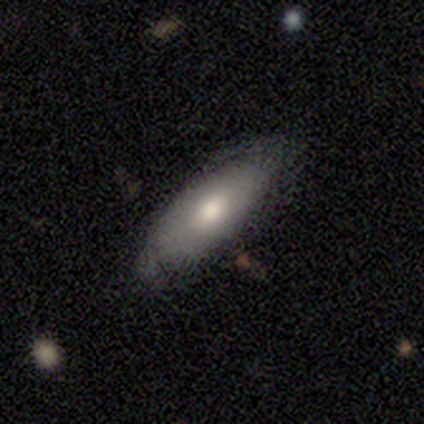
This appears to be a smooth galaxy with no disk features (50%, tied with featured or disk) that is in between round and cigar-shaped (50%, tied with cigar-shaped). Merging: none (75%).